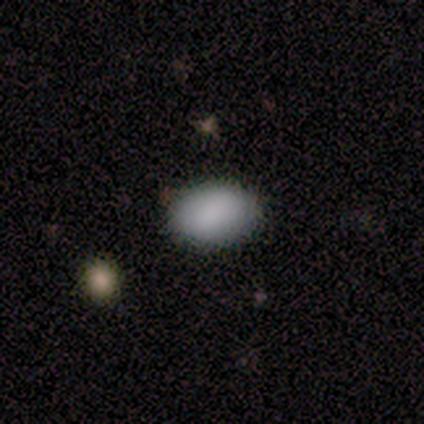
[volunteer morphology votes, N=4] Overall: smooth (100%). How rounded: in between (100%). Merging: none (75%).